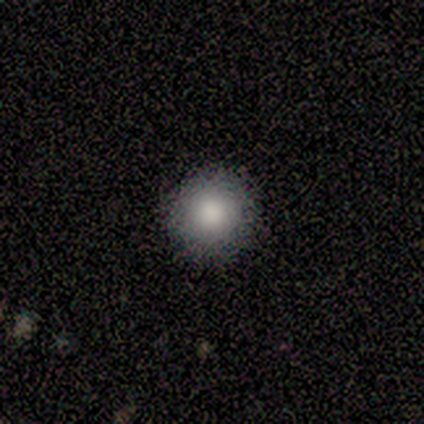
Smooth or featured: smooth — 78% (featured or disk — 11%)
How rounded: round — 100%
Merging: none — 100%